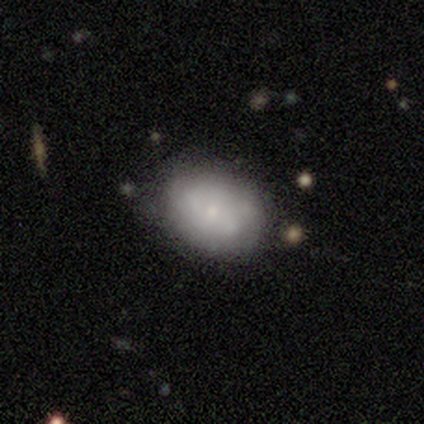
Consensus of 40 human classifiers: featured or disk 48%, smooth 42%, star or artifact 10%. Down the decision tree: edge-on disk — no (100%); bar — no (89%); spiral arms — no (58%); bulge size — small (74%); merging — none (69%).